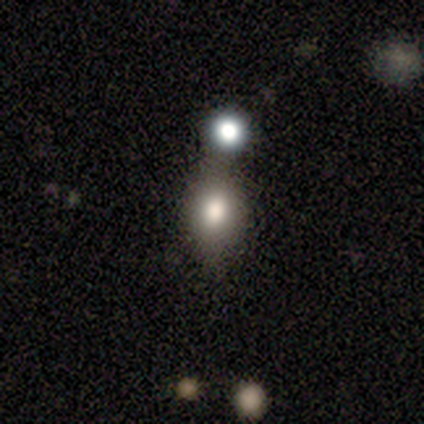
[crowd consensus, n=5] smooth_or_featured: smooth (p=0.60) [alt: star or artifact p=0.40]
how_rounded: in between (p=0.67) [alt: round p=0.33]
merging: none (p=0.67) [alt: minor disturbance p=0.33]